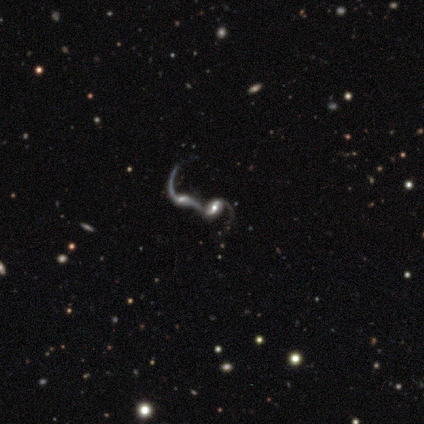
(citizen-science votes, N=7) A featured or disk galaxy (86%) with a weak bar (60%), 2 (60%) loose (80%) spiral arms (100%) and a large central bulge (40%, tied with moderate).

Vote fractions:
- Smooth or featured? featured or disk: 86% / star or artifact: 14% / smooth: 0%
- Edge-on disk? no: 83% / yes: 17%
- Bar? weak: 60% / strong: 20% / no: 20%
- Spiral arms? yes: 100% / no: 0%
- Spiral winding? loose: 80% / tight: 20% / medium: 0%
- Spiral arm count? 2: 60% / 1: 20% / can't tell: 20% / 3: 0% / 4: 0% / more than 4: 0%
- Bulge size? large: 40% (tied) / moderate: 40% (tied) / small: 20% / dominant: 0% / none: 0%
- Merging? merger: 100% / none: 0% / minor disturbance: 0% / major disturbance: 0%